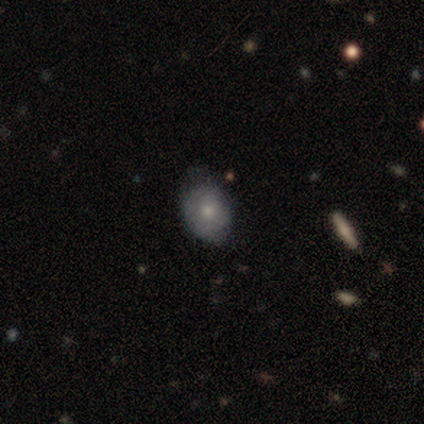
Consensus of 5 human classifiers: Smooth or featured?
  - smooth: 100% *
  - featured or disk: 0%
  - star or artifact: 0%
How rounded?
  - in between: 80% *
  - round: 20%
  - cigar-shaped: 0%
Merging?
  - minor disturbance: 60% *
  - none: 40%
  - major disturbance: 0%
  - merger: 0%